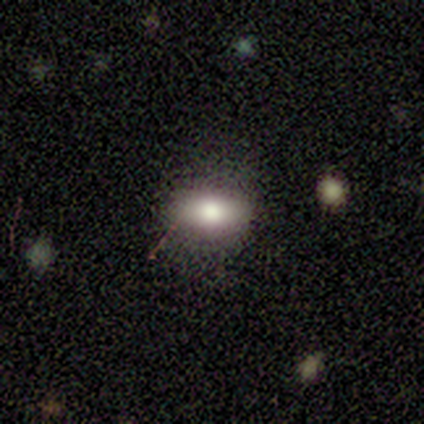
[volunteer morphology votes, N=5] Smooth or featured? featured or disk (60%)
Edge-on disk? no (100%)
Bar? no (67%)
Spiral arms? no (100%)
Bulge size? moderate (67%)
Merging? none (80%)